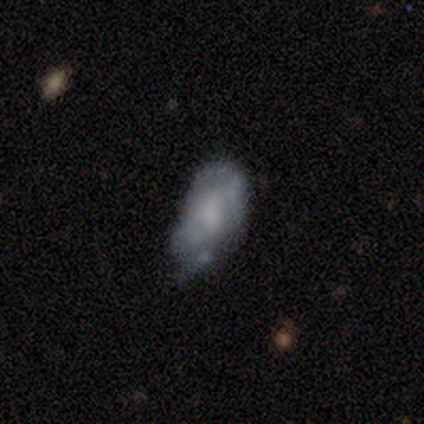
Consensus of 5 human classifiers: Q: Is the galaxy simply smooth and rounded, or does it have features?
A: featured or disk — 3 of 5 (60%).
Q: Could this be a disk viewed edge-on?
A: no — 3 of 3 (100%).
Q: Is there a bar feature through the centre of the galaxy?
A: no — 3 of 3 (100%).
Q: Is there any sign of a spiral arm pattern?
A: no — 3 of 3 (100%).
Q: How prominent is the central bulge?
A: none — 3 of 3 (100%).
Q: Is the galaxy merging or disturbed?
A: minor disturbance — 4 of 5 (80%).